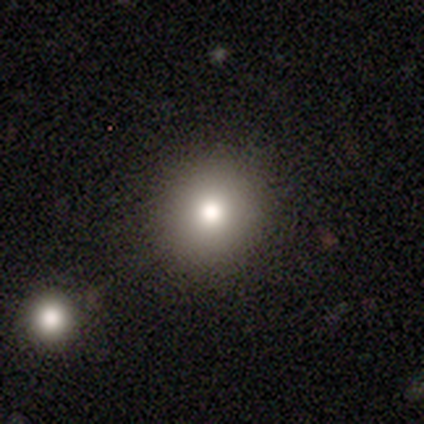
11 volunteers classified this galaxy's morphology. This is likely a smooth galaxy (64%). How rounded: clearly round (100%). Merging: clearly none (89%).